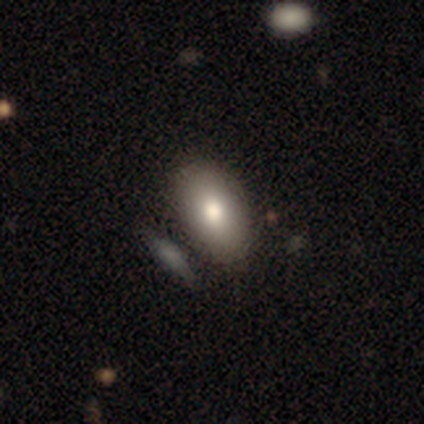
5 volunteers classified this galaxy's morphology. smooth 80%, featured or disk 20%, star or artifact 0%. Down the decision tree: how rounded — in between (100%); merging — none (60%).